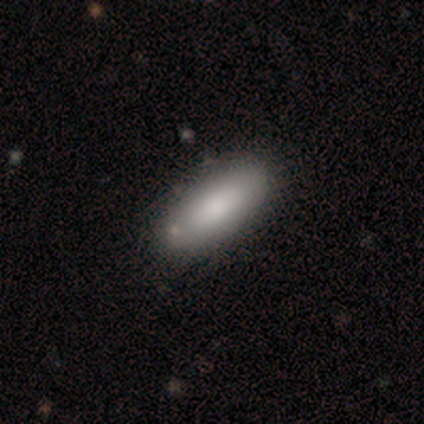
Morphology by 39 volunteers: Overall: smooth (79%). How rounded: in between (87%). Merging: none (54%).